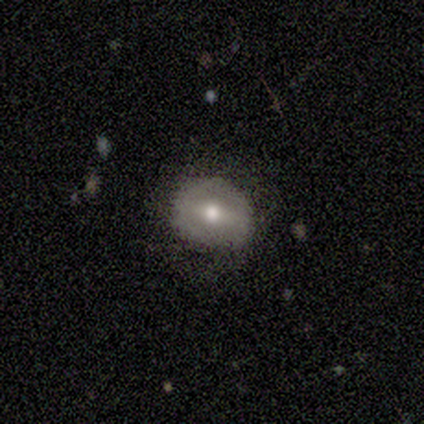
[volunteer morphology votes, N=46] Smooth or featured? smooth (52%)
How rounded? round (88%)
Merging? none (84%)